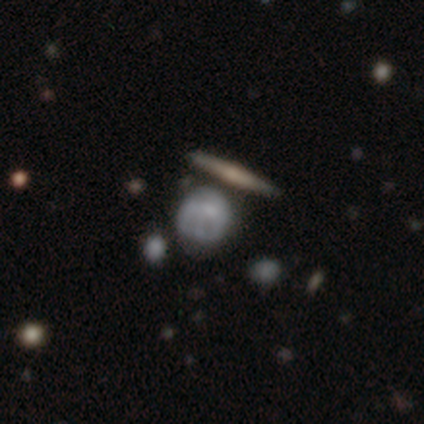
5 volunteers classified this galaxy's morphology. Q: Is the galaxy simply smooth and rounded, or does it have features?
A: smooth — 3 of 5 (60%).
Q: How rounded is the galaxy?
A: round — 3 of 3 (100%).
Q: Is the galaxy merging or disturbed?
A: minor disturbance — 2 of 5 (40%, tied with major disturbance).